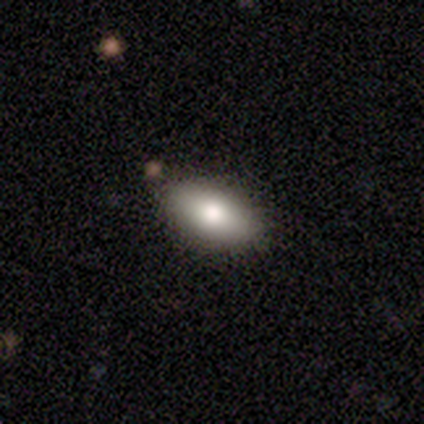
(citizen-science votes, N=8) Smooth or featured? smooth (100%)
How rounded? in between (100%)
Merging? none (100%)